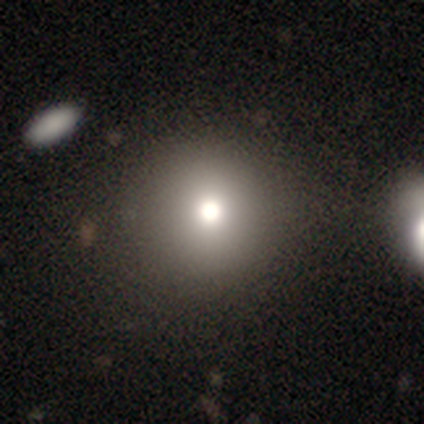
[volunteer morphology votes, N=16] A smooth galaxy with no disk features (56%) that is round (100%). Merging: none (92%).